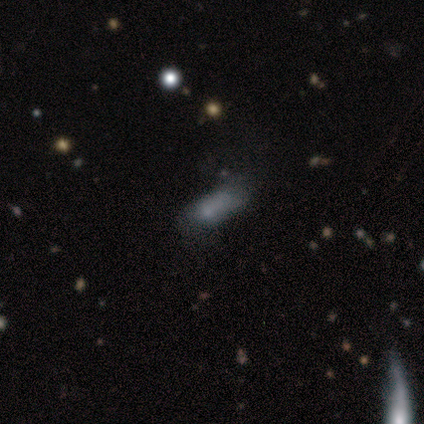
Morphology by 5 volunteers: This appears to be a smooth galaxy with no disk features (40%, tied with star or artifact) that is in between round and cigar-shaped (100%). Merging: none (33%, tied with major disturbance and merger).